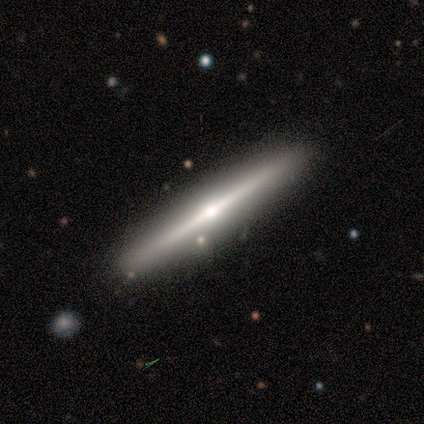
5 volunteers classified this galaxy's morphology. Smooth or featured? 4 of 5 (80%) said featured or disk. Edge-on disk? 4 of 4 (100%) said yes. Edge-on bulge? 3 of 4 (75%) said rounded. Merging? 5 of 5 (100%) said none.